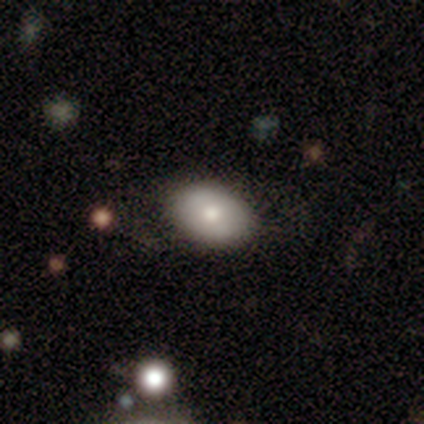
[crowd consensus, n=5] smooth-or-featured: smooth: 80% | featured or disk: 20% | star or artifact: 0%
  how-rounded: in between: 100% | round: 0% | cigar-shaped: 0%
  merging: none: 80% | minor disturbance: 20% | major disturbance: 0% | merger: 0%